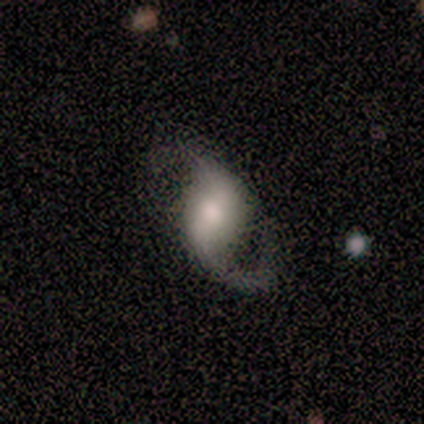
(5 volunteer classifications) smooth_or_featured: featured or disk (p=1.00)
disk_edge_on: no (p=1.00)
bar: weak (p=0.80) [alt: strong p=0.20]
has_spiral_arms: yes (p=1.00)
spiral_winding: loose (p=0.60) [alt: medium p=0.40]
spiral_arm_count: 2 (p=0.80) [alt: 1 p=0.20]
bulge_size: moderate (p=0.80) [alt: small p=0.20]
merging: minor disturbance (p=0.80) [alt: none p=0.20]